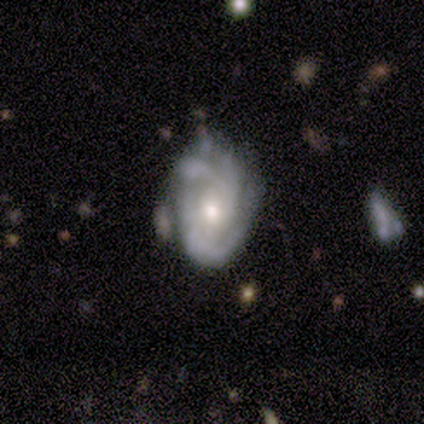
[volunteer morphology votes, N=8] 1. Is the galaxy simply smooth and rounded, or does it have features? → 100% featured or disk, 0% smooth, 0% star or artifact.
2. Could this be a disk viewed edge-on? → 100% no, 0% yes.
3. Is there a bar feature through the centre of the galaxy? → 75% no, 25% weak, 0% strong.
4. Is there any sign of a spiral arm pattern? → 100% yes, 0% no.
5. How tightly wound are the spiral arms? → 50% medium, 38% tight, 12% loose.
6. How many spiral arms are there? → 38% 3, 25% 2, 25% can't tell, 12% 4, 0% 1, 0% more than 4.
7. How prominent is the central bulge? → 75% moderate, 12% large, 12% small, 0% dominant, 0% none.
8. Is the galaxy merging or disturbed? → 62% none, 25% minor disturbance, 12% major disturbance, 0% merger.